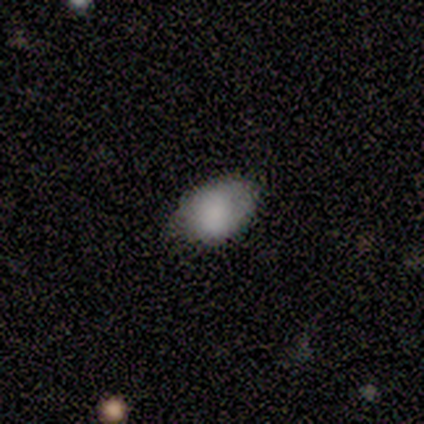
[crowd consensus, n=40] smooth_or_featured: smooth (p=0.80) [alt: featured or disk p=0.10]
how_rounded: in between (p=0.91) [alt: round p=0.06]
merging: none (p=0.67) [alt: minor disturbance p=0.28]